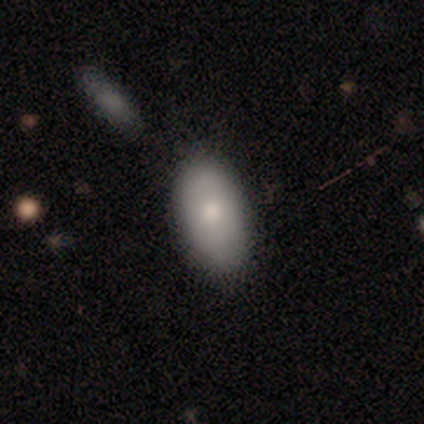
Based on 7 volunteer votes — Volunteers were most divided on "merging": none: 50%, minor disturbance: 33%, major disturbance: 17%, merger: 0%. More confident: how rounded — in between (100%); smooth or featured — smooth (57%).